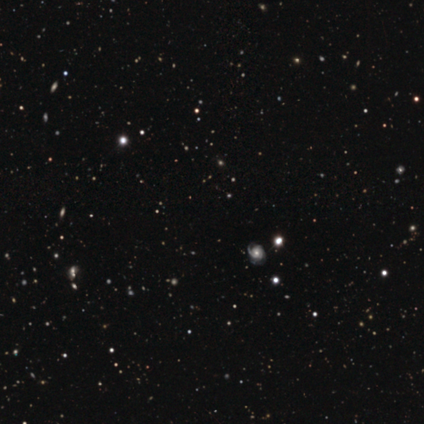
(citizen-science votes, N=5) Volunteers were most divided on "smooth or featured" (2-way tie): featured or disk: 40%, star or artifact: 40%, smooth: 20%; "bar" (2-way tie): weak: 50%, no: 50%, strong: 0%; "spiral arm count" (2-way tie): 1: 50%, can't tell: 50%, 2: 0%, 3: 0%, 4: 0%, more than 4: 0%; "bulge size" (2-way tie): moderate: 50%, small: 50%, dominant: 0%, large: 0%, none: 0%. More confident: edge-on disk — no (100%); spiral arms — yes (100%); spiral winding — medium (100%); merging — none (67%).